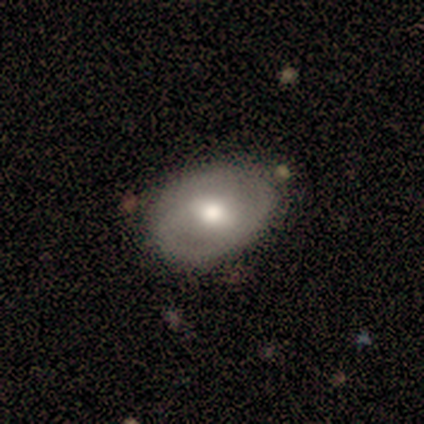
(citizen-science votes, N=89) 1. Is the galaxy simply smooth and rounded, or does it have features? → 51% smooth, 43% featured or disk, 7% star or artifact.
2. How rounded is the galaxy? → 82% in between, 18% round, 0% cigar-shaped.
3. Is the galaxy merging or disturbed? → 77% none, 20% minor disturbance, 2% major disturbance, 0% merger.